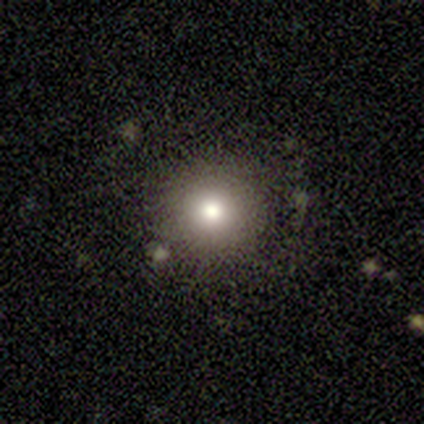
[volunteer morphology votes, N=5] smooth 80%, star or artifact 20%, featured or disk 0%. Down the decision tree: how rounded — round (100%); merging — none (100%).